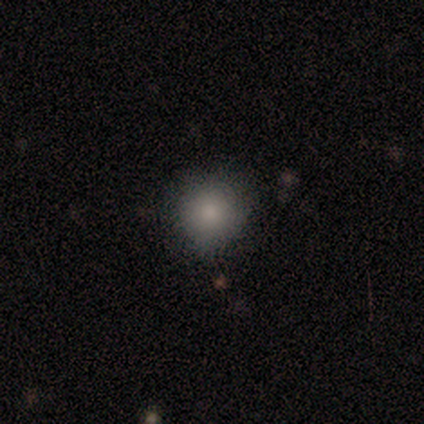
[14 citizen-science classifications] Smooth or featured? smooth (86%)
How rounded? round (83%)
Merging? none (69%)